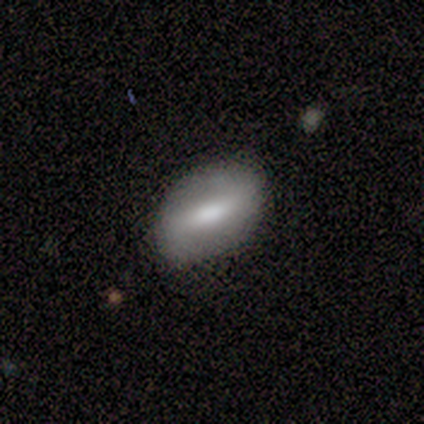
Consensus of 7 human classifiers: This appears to be a smooth galaxy with no disk features (71%) that is in between round and cigar-shaped (80%). Merging: none (71%).